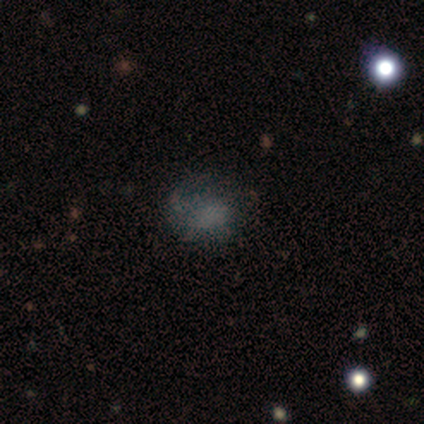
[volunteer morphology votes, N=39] Smooth or featured? 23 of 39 (59%) said smooth. How rounded? 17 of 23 (74%) said round. Merging? 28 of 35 (80%) said none.